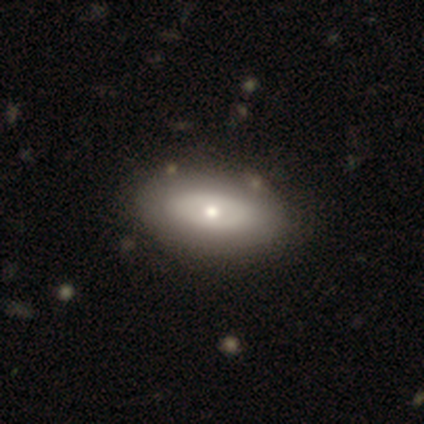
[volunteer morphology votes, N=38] Q: Smooth or featured?
A: smooth (50%); runner-up: featured or disk (39%)
Q: How rounded?
A: in between (100%)
Q: Merging?
A: none (59%); runner-up: major disturbance (3%)